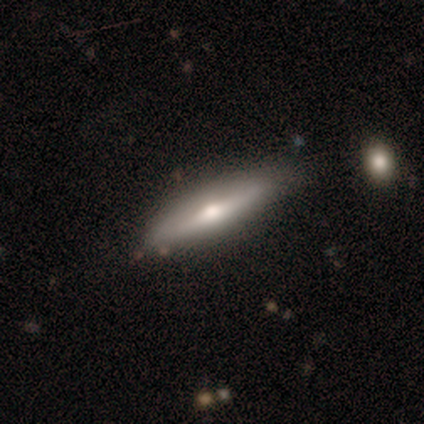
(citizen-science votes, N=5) smooth 60%, featured or disk 40%, star or artifact 0%. Down the decision tree: how rounded — cigar-shaped (67%); merging — none (60%).